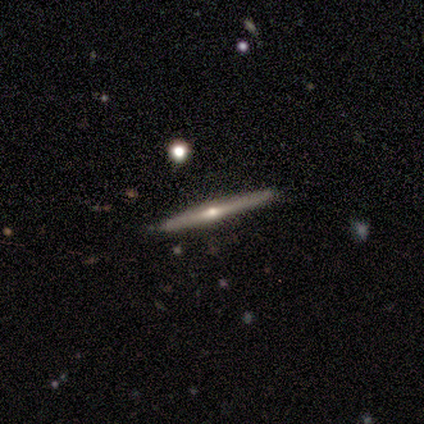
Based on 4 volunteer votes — smooth 50% (tied), featured or disk 50% (tied), star or artifact 0%. Down the decision tree: how rounded — cigar-shaped (100%); merging — none (100%).